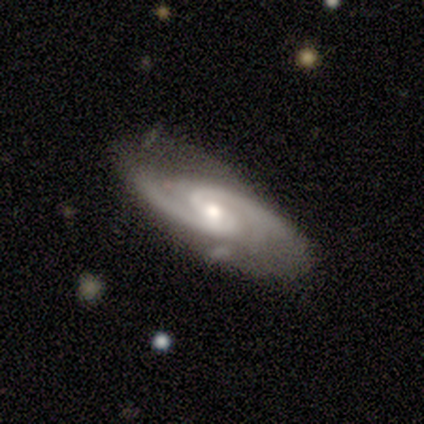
featured or disk 100%, smooth 0%, star or artifact 0%. Down the decision tree: edge-on disk — no (67%); bar — strong (50%, tied with no); spiral arms — yes (100%); spiral arm count — 2 (100%); spiral winding — tight (50%, tied with medium); bulge size — small (100%); merging — none (100%).